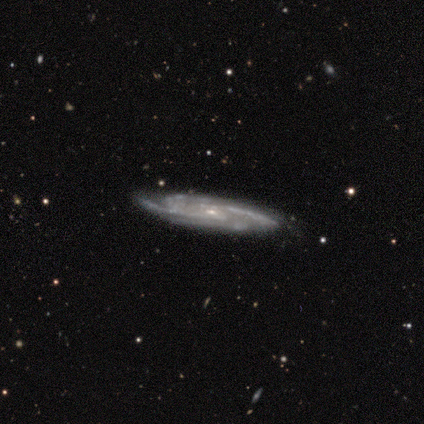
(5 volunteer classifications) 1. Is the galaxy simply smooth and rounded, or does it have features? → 100% featured or disk, 0% smooth, 0% star or artifact.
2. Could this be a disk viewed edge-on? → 100% no, 0% yes.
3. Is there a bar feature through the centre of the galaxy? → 80% weak, 20% no, 0% strong.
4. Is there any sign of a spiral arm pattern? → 100% yes, 0% no.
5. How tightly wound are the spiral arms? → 60% tight, 40% medium, 0% loose.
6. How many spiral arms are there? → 80% 3, 20% 4, 0% 1, 0% 2, 0% more than 4, 0% can't tell.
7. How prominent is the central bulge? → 100% small, 0% dominant, 0% large, 0% moderate, 0% none.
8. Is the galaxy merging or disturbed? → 100% none, 0% minor disturbance, 0% major disturbance, 0% merger.